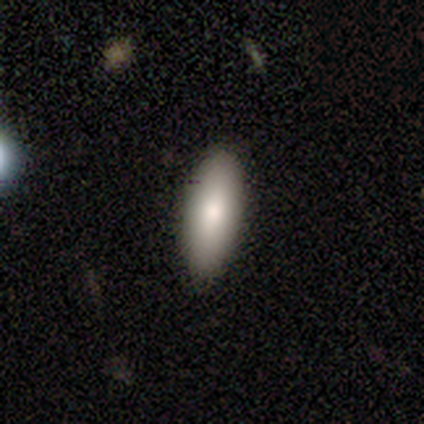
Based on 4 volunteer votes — Q: Smooth or featured?
A: smooth (100%)
Q: How rounded?
A: in between (75%); runner-up: cigar-shaped (25%)
Q: Merging?
A: none (100%)